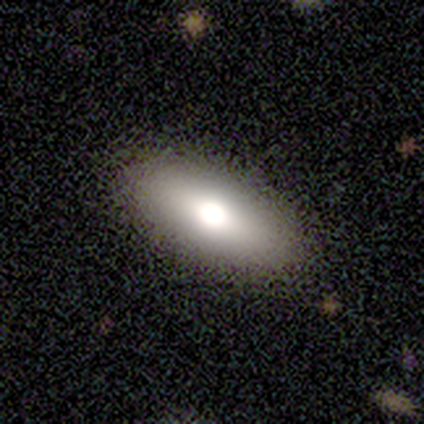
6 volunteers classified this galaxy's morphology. A smooth galaxy with no disk features (100%) that is in between round and cigar-shaped (100%).

Vote fractions:
- Smooth or featured? smooth: 100% / featured or disk: 0% / star or artifact: 0%
- How rounded? in between: 100% / round: 0% / cigar-shaped: 0%
- Merging? none: 67% / minor disturbance: 33% / major disturbance: 0% / merger: 0%